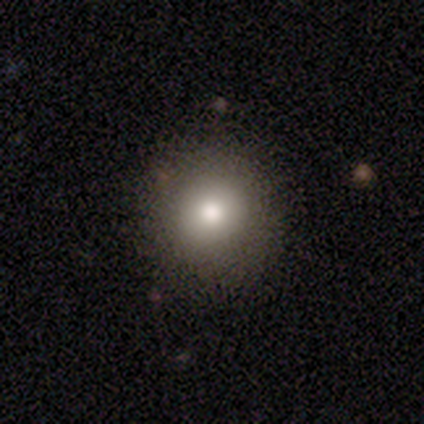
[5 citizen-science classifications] Smooth or featured? 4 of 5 (80%) said smooth. How rounded? 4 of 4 (100%) said round. Merging? 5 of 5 (100%) said none.